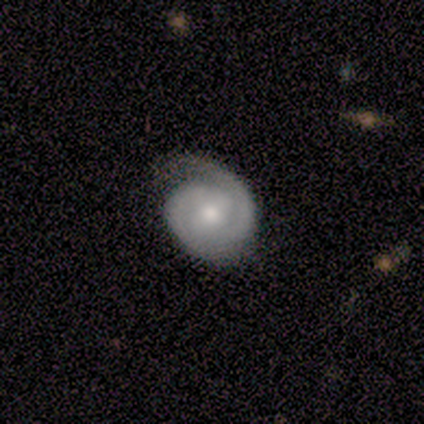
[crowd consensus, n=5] Q: Smooth or featured?
A: featured or disk (100%)
Q: Edge-on disk?
A: no (100%)
Q: Bar?
A: weak (40%); tied with: no (40%)
Q: Spiral arms?
A: yes (100%)
Q: Spiral winding?
A: tight (100%)
Q: Spiral arm count?
A: 2 (80%); runner-up: can't tell (20%)
Q: Bulge size?
A: moderate (80%); runner-up: small (20%)
Q: Merging?
A: none (100%)